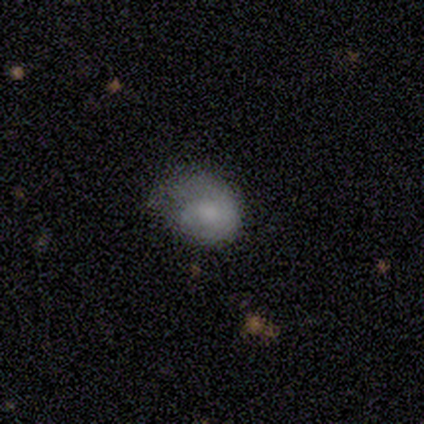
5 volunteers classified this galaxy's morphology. Smooth or featured?
  - smooth: 80% *
  - featured or disk: 20%
  - star or artifact: 0%
How rounded?
  - round: 50% * (tied)
  - in between: 50% * (tied)
  - cigar-shaped: 0%
Merging?
  - major disturbance: 60% *
  - none: 20%
  - minor disturbance: 20%
  - merger: 0%